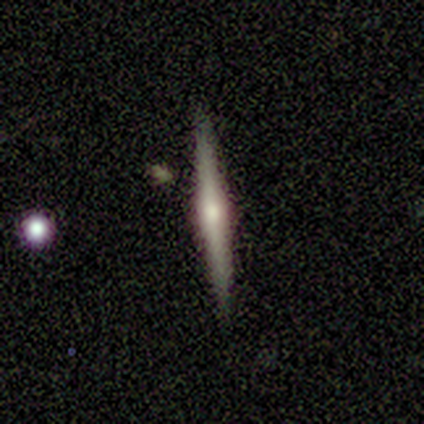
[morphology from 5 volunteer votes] type=featured or disk (80%); edge-on=yes (100%); edge-on bulge=rounded (75%); merging=none (100%).